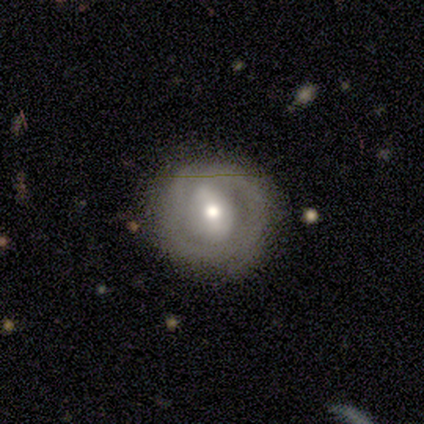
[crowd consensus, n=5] This is clearly a featured or disk galaxy (80%). It is clearly not viewed edge-on (100%). Bar: likely weak (75%). Spiral arm pattern: likely yes (75%). Spiral arm count: marginally 1 (33%, tied with 2 and can't tell). Spiral winding: clearly tight (100%). Central bulge: likely moderate (75%). Merging: clearly none (100%).